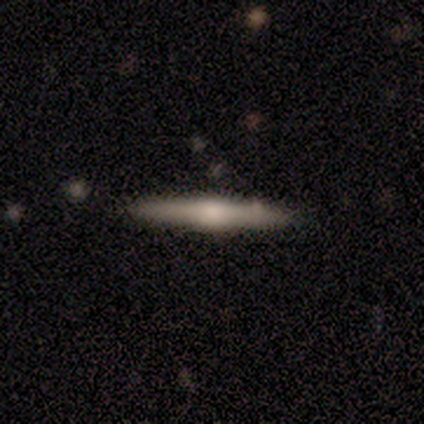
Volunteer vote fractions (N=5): smooth-or-featured: featured or disk: 60% | smooth: 40% | star or artifact: 0%
  disk-edge-on: yes: 100% | no: 0%
    edge-on-bulge: rounded: 100% | boxy: 0% | none: 0%
  merging: none: 80% | minor disturbance: 20% | major disturbance: 0% | merger: 0%